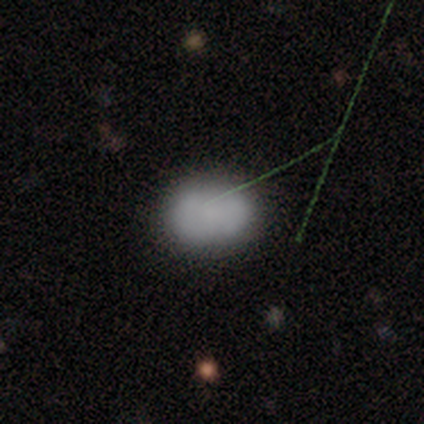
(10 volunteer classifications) Smooth or featured? smooth (80%)
How rounded? in between (100%)
Merging? minor disturbance (67%)